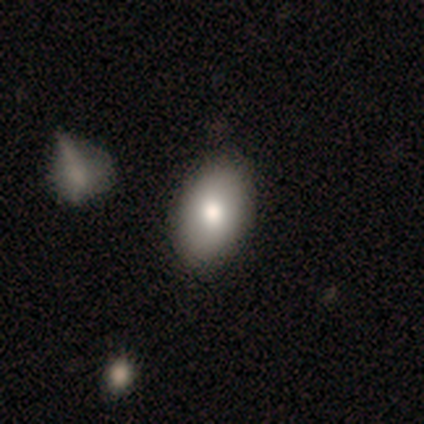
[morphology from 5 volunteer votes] Smooth or featured? 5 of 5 (100%) said smooth. How rounded? 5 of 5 (100%) said in between. Merging? 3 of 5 (60%) said none.